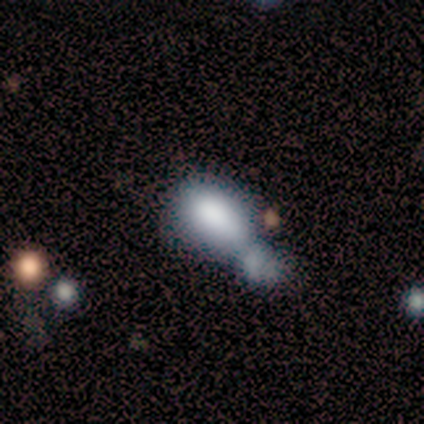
Volunteers were most divided on "merging": merger: 54%, none: 23%, minor disturbance: 15%, major disturbance: 8%. More confident: how rounded — in between (100%); smooth or featured — smooth (79%).